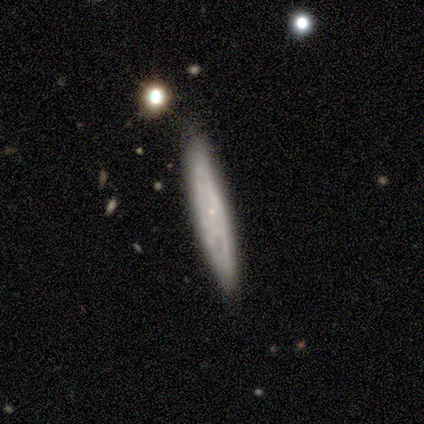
Q: Smooth or featured?
A: featured or disk (100%)
Q: Edge-on disk?
A: yes (60%); runner-up: no (40%)
Q: Edge-on bulge?
A: rounded (67%); runner-up: none (33%)
Q: Merging?
A: none (40%); tied with: major disturbance (40%)